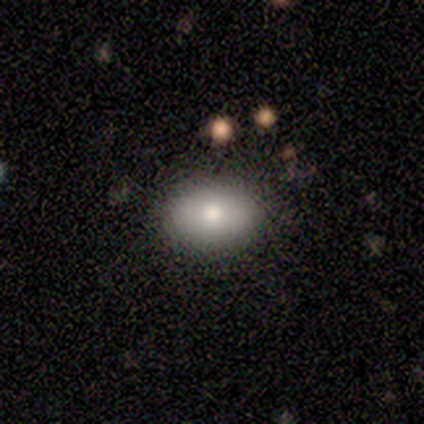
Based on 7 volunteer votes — Smooth or featured: featured or disk — 57% (smooth — 43%)
Edge-on disk: no — 100%
Bar: no — 100%
Spiral arms: no — 100%
Bulge size: moderate — 100%
Merging: none — 71% (minor disturbance — 29%)